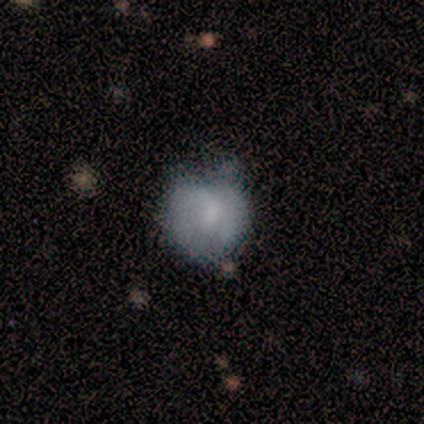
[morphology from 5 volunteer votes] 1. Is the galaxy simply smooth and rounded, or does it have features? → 60% smooth, 40% featured or disk, 0% star or artifact.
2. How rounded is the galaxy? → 100% round, 0% in between, 0% cigar-shaped.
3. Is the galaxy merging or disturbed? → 80% minor disturbance, 20% none, 0% major disturbance, 0% merger.